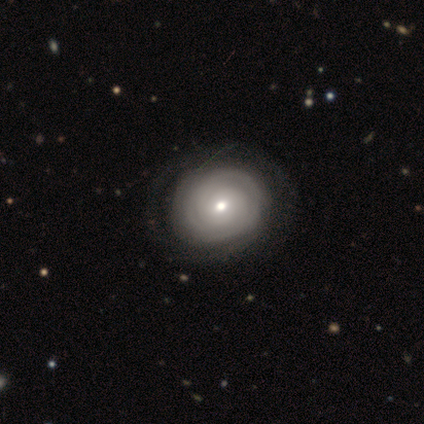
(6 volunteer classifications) Morphology: type=featured or disk (67%); edge-on=no (75%); bar=no (100%); spiral arms=yes (100%); winding=tight (100%); arm count=can't tell (100%); bulge=moderate (67%); merging=none (100%).